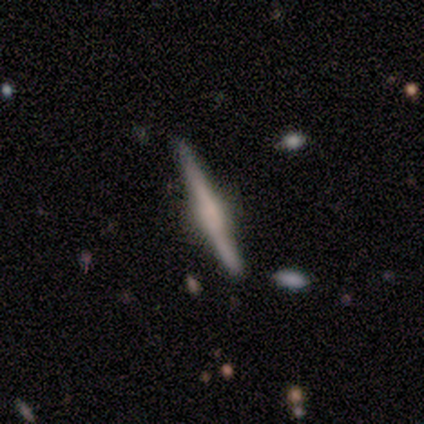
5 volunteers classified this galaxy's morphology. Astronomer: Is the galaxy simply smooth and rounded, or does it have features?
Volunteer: smooth — 40%, tied with featured or disk at 40%.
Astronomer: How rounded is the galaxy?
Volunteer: cigar-shaped — 100%.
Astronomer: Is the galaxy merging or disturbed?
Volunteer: none — 100%.